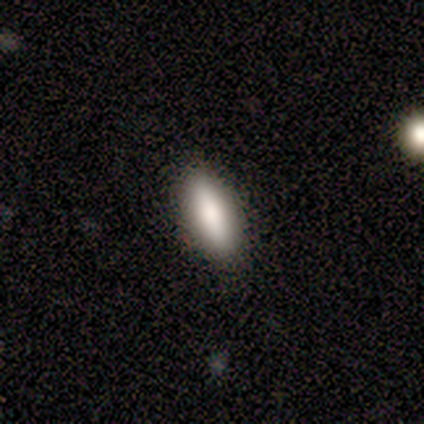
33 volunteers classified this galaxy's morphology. A smooth galaxy with no disk features (85%) that is in between round and cigar-shaped (57%). Merging: none (87%).